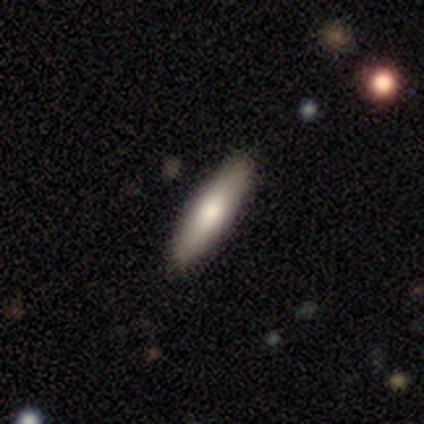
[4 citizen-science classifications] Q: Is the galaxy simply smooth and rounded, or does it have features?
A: smooth — 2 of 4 (50%, tied with star or artifact).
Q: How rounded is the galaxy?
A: in between — 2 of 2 (100%).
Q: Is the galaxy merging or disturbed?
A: none — 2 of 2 (100%).